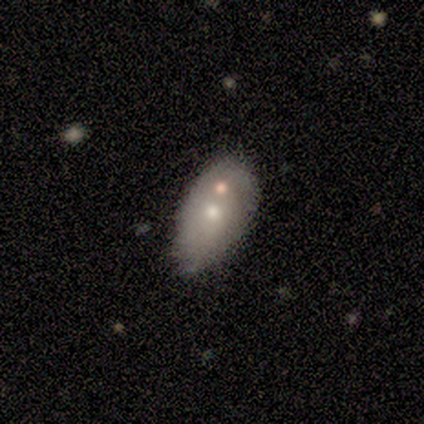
Smooth or featured: smooth — 100%
How rounded: in between — 100%
Merging: merger — 100%